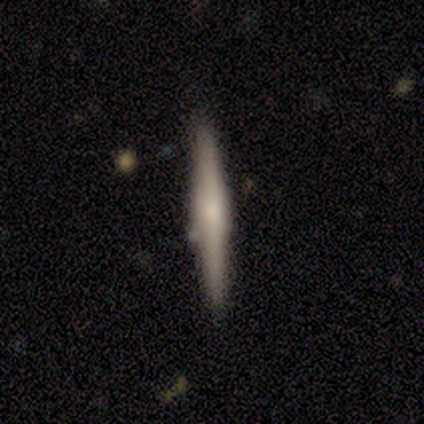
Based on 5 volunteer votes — This is likely a featured or disk galaxy (60%). It is clearly viewed edge-on (100%). Edge-on bulge: likely rounded (67%). Merging: clearly none (80%).